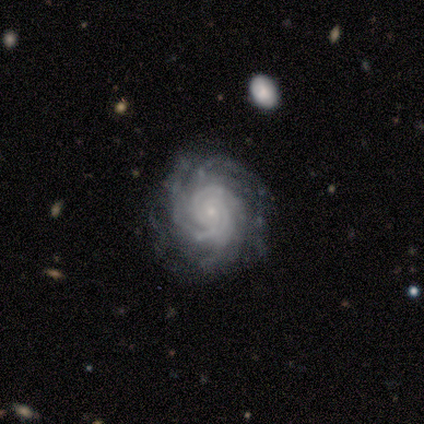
Smooth or featured: featured or disk — 100%
Edge-on disk: no — 100%
Bar: no — 83% (strong — 17%)
Spiral arms: yes — 100%
Spiral winding: tight — 83% (medium — 17%)
Spiral arm count: 4 — 33% (2 — 17%)
Bulge size: small — 83% (moderate — 17%)
Merging: none — 100%